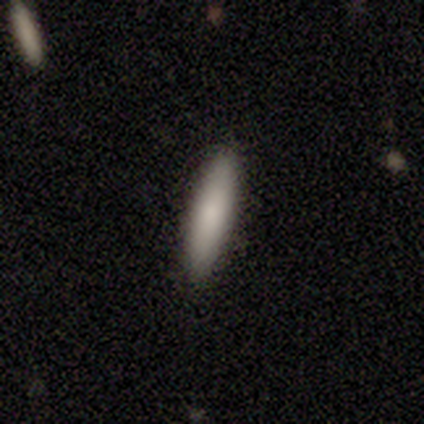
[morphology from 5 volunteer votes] smooth-or-featured: smooth: 80% | featured or disk: 20% | star or artifact: 0%
  how-rounded: cigar-shaped: 100% | round: 0% | in between: 0%
  merging: none: 60% | minor disturbance: 40% | major disturbance: 0% | merger: 0%